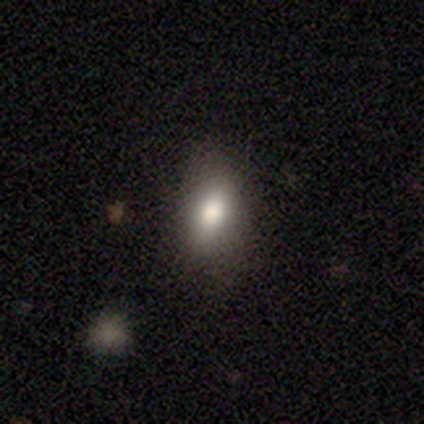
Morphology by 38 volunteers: This appears to be a smooth galaxy with no disk features (74%) that is in between round and cigar-shaped (82%). Merging: none (37%).